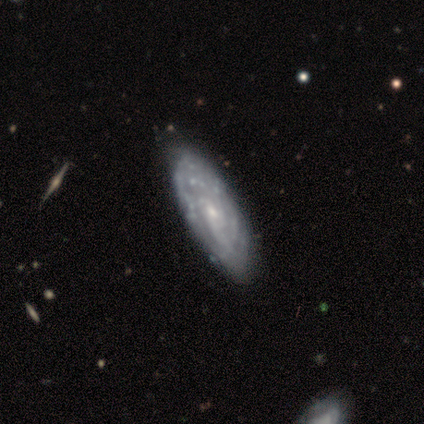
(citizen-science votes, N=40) Smooth or featured: featured or disk — 88% (star or artifact — 8%)
Edge-on disk: no — 97% (yes — 3%)
Bar: no — 68% (weak — 29%)
Spiral arms: yes — 85% (no — 15%)
Spiral winding: tight — 62% (medium — 24%)
Spiral arm count: can't tell — 69% (2 — 7%)
Bulge size: small — 68% (moderate — 26%)
Merging: none — 51% (minor disturbance — 22%)